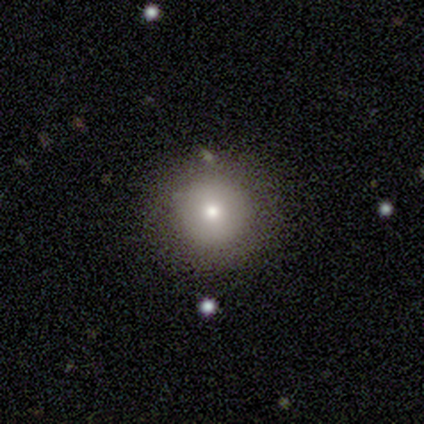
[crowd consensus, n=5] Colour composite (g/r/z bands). It shows a smooth galaxy with no disk features (80%) that is round (100%). Merging: none (100%).